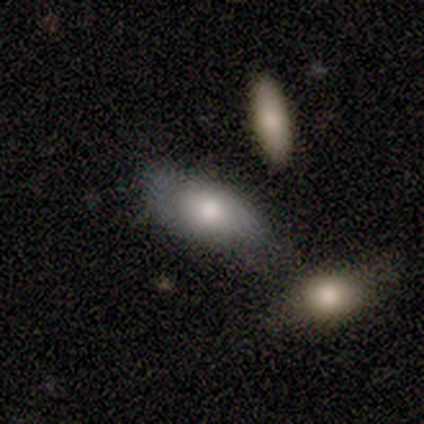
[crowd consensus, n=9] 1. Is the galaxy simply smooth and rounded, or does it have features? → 100% smooth, 0% featured or disk, 0% star or artifact.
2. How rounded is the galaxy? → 89% in between, 11% cigar-shaped, 0% round.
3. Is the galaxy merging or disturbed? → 44% none (tied), 44% minor disturbance (tied), 11% merger, 0% major disturbance.